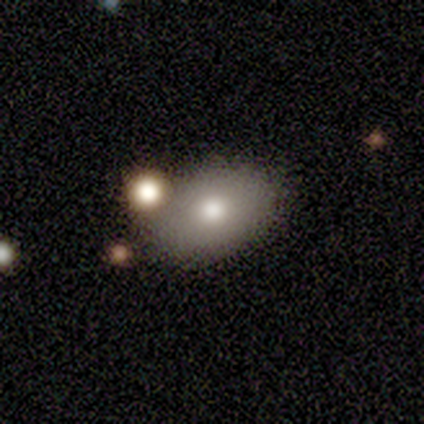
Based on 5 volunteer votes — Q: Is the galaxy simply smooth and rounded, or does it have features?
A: smooth — 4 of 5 (80%).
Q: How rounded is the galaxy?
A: in between — 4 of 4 (100%).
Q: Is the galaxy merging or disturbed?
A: none — 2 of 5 (40%).